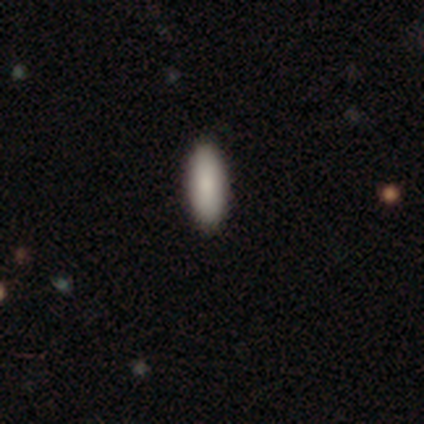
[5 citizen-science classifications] This is clearly a smooth galaxy (80%). How rounded: possibly in between (50%, tied with cigar-shaped). Merging: clearly none (100%).